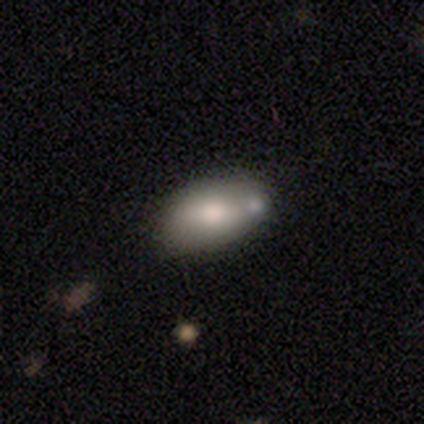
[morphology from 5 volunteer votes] Smooth or featured? smooth (100%)
How rounded? in between (80%)
Merging? none (80%)